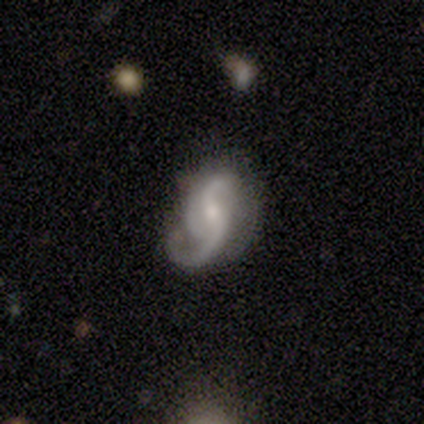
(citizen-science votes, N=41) featured or disk 90%, star or artifact 10%, smooth 0%. Down the decision tree: edge-on disk — no (100%); bar — no (51%); spiral arms — yes (100%); spiral arm count — 2 (78%); spiral winding — loose (49%); bulge size — small (49%); merging — none (43%).